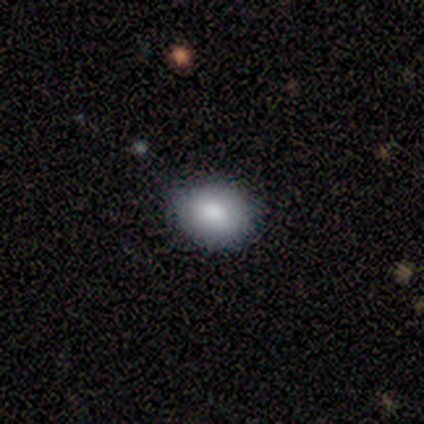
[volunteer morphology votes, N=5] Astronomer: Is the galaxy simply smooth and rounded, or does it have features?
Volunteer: smooth — 100%.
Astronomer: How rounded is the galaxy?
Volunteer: in between — 80%.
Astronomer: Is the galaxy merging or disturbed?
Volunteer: none — 80%.